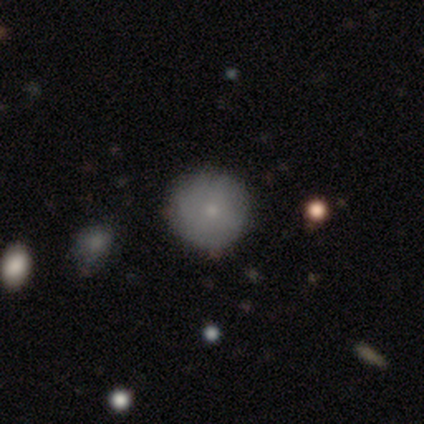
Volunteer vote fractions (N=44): smooth-or-featured: smooth: 70% | featured or disk: 30% | star or artifact: 0%
  how-rounded: round: 100% | in between: 0% | cigar-shaped: 0%
  merging: none: 86% | minor disturbance: 7% | major disturbance: 5% | merger: 2%